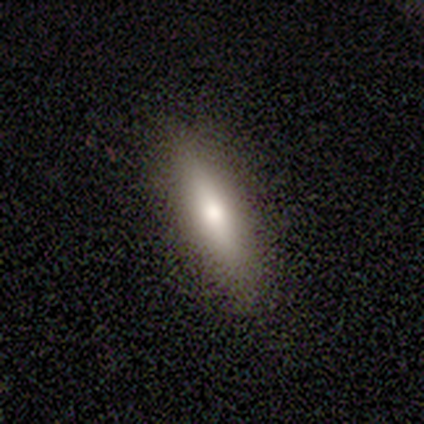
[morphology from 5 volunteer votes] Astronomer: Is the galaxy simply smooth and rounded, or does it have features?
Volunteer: smooth — 60% (runner-up: featured or disk, 40%).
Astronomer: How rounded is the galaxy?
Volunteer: in between — 67%.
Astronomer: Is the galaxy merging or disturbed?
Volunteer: none — 100%.